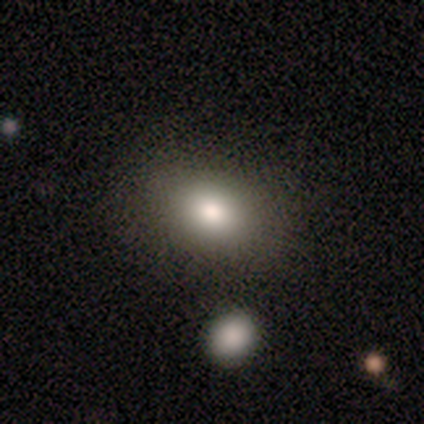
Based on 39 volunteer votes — Smooth or featured? 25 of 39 (64%) said smooth. How rounded? 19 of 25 (76%) said in between. Merging? 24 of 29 (83%) said none.